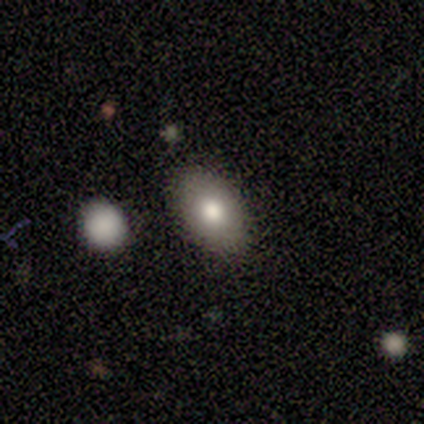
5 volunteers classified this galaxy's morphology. This appears to be a smooth galaxy with no disk features (100%) that is in between round and cigar-shaped (100%). Merging: none (80%).